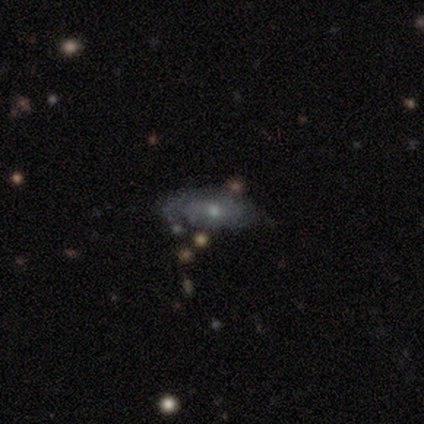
Smooth or featured? smooth (60%)
How rounded? in between (100%)
Merging? minor disturbance (40%, tied with merger)